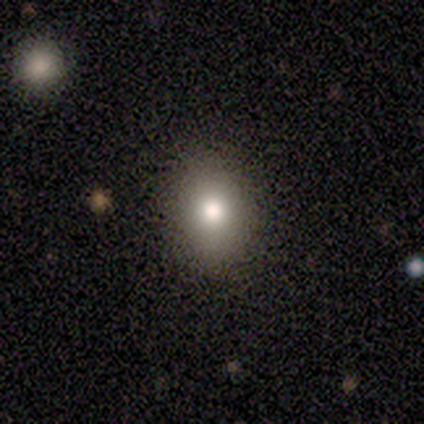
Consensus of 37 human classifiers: A smooth galaxy with no disk features (76%) that is in between round and cigar-shaped (68%).

Vote fractions:
- Smooth or featured? smooth: 76% / featured or disk: 16% / star or artifact: 8%
- How rounded? in between: 68% / round: 32% / cigar-shaped: 0%
- Merging? none: 91% / major disturbance: 6% / minor disturbance: 3% / merger: 0%